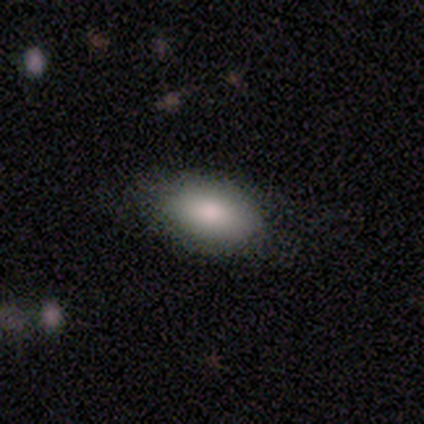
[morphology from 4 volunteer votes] Smooth or featured? smooth (100%)
How rounded? in between (100%)
Merging? none (100%)